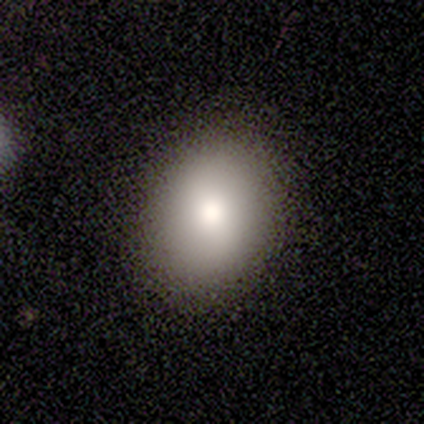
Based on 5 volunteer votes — Q: Smooth or featured?
A: smooth (100%)
Q: How rounded?
A: in between (80%); runner-up: round (20%)
Q: Merging?
A: none (60%); runner-up: minor disturbance (40%)